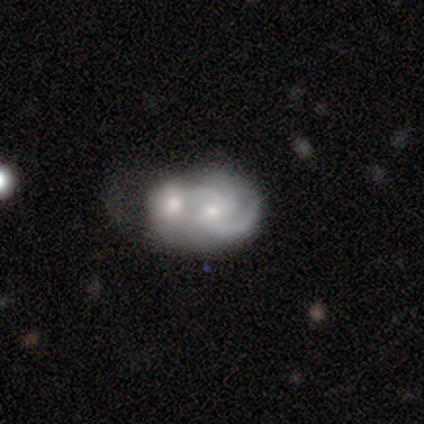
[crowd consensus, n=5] Smooth or featured? 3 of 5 (60%) said featured or disk. Edge-on disk? 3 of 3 (100%) said no. Bar? 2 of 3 (67%) said weak. Spiral arms? 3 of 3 (100%) said yes. Spiral winding? 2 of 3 (67%) said medium. Spiral arm count? 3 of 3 (100%) said 2. Bulge size? 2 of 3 (67%) said moderate. Merging? 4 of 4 (100%) said merger.